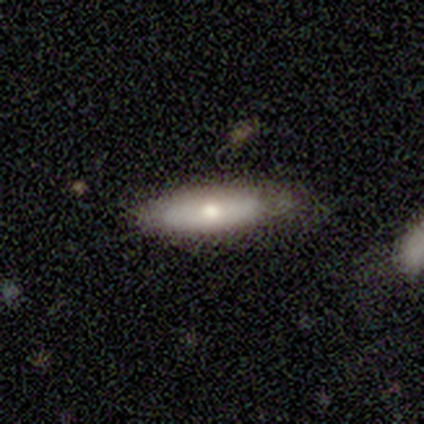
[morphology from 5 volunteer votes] Smooth or featured? featured or disk (60%)
Edge-on disk? yes (100%)
Edge-on bulge? rounded (100%)
Merging? none (80%)